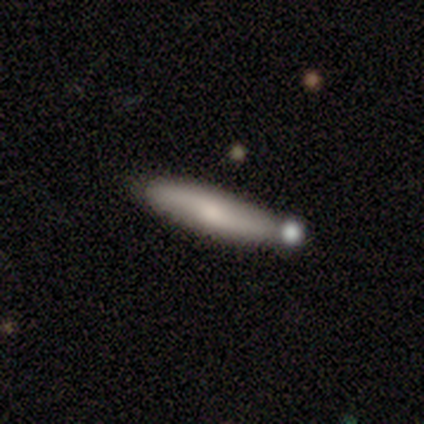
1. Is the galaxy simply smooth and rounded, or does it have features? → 56% smooth, 39% featured or disk, 5% star or artifact.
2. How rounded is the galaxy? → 87% cigar-shaped, 13% in between, 0% round.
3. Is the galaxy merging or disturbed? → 64% none, 13% merger, 10% minor disturbance, 3% major disturbance.